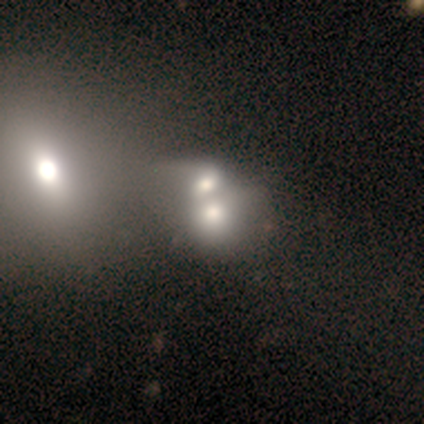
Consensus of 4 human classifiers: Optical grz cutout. It shows a smooth galaxy with no disk features (75%) that is round (100%). Merging: merger (100%).